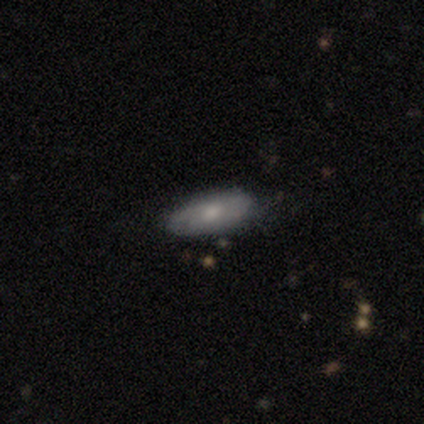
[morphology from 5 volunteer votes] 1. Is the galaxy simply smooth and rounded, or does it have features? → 80% smooth, 20% featured or disk, 0% star or artifact.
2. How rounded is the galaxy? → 50% in between, 25% round, 25% cigar-shaped.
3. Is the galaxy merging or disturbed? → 100% none, 0% minor disturbance, 0% major disturbance, 0% merger.